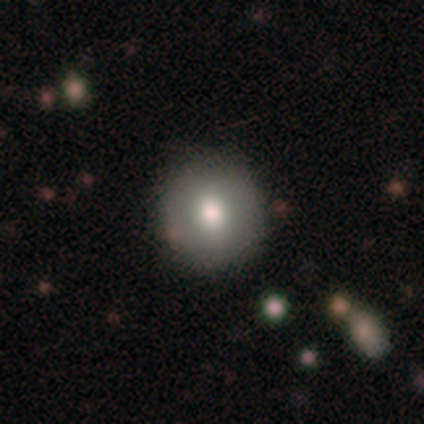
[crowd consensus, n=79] Overall: smooth (75%). How rounded: round (88%). Merging: none (48%).